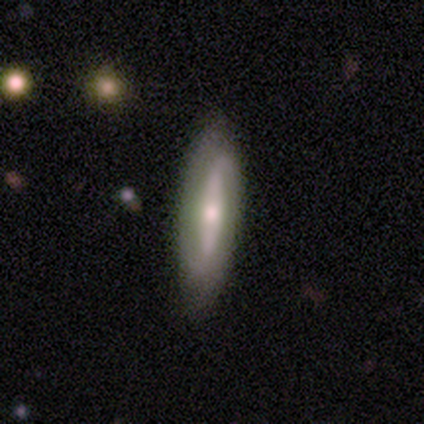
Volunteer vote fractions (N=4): Overall: featured or disk (75%). Edge-on disk: no (67%; yes 33%). Bar: strong (50%, tied with no). Spiral arms: yes (100%). Spiral arm count: 2 (100%). Spiral winding: loose (100%). Bulge size: moderate (50%, tied with small). Merging: none (100%).